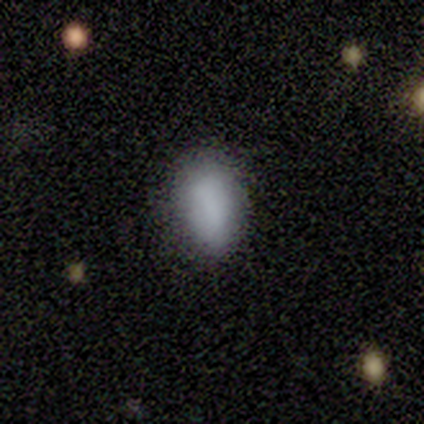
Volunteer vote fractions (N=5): A smooth galaxy with no disk features (60%) that is in between round and cigar-shaped (100%).

Vote fractions:
- Smooth or featured? smooth: 60% / featured or disk: 20% / star or artifact: 20%
- How rounded? in between: 100% / round: 0% / cigar-shaped: 0%
- Merging? none: 75% / major disturbance: 25% / minor disturbance: 0% / merger: 0%